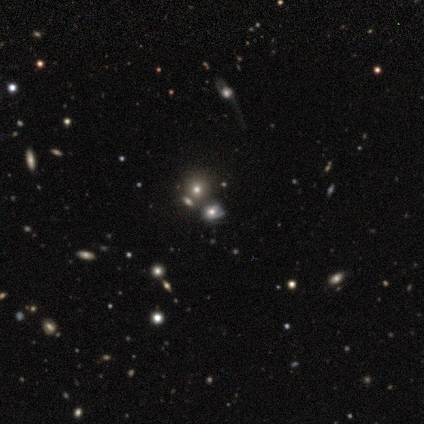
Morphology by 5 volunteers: smooth 40% (tied), star or artifact 40% (tied), featured or disk 20%. Down the decision tree: how rounded — in between (100%); merging — none (100%).